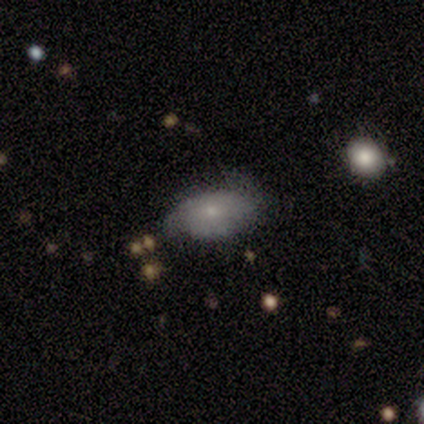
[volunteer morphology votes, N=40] Smooth or featured?
  - smooth: 68% *
  - featured or disk: 32%
  - star or artifact: 0%
How rounded?
  - in between: 96% *
  - round: 4%
  - cigar-shaped: 0%
Merging?
  - none: 35% *
  - minor disturbance: 30%
  - major disturbance: 15%
  - merger: 2%